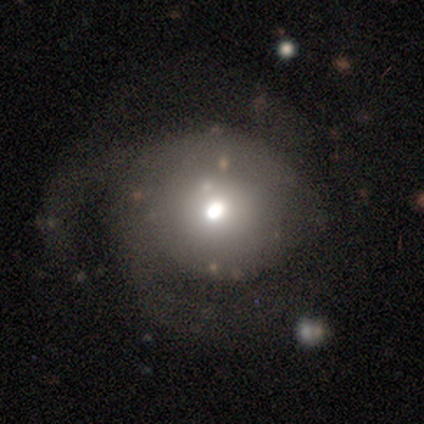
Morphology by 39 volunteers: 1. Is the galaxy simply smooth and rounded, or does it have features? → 49% smooth, 44% featured or disk, 8% star or artifact.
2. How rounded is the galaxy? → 74% round, 21% in between, 5% cigar-shaped.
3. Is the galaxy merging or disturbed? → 53% none, 33% major disturbance, 11% minor disturbance, 3% merger.